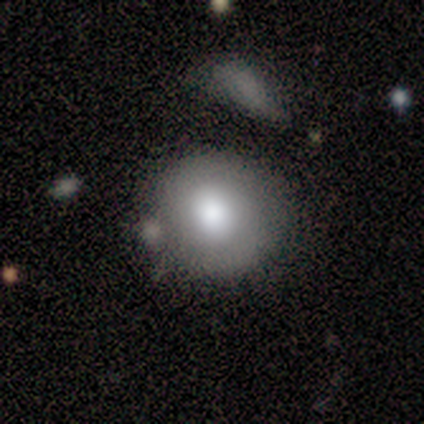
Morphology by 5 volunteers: featured or disk 60%, smooth 40%, star or artifact 0%. Down the decision tree: edge-on disk — no (100%); bar — no (67%); spiral arms — no (100%); bulge size — large (67%); merging — none (80%).